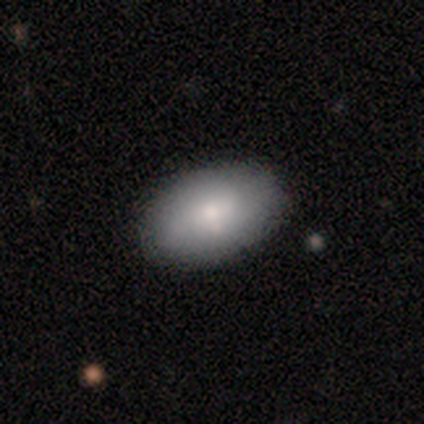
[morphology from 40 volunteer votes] Smooth or featured?
  - smooth: 72% *
  - featured or disk: 15%
  - star or artifact: 12%
How rounded?
  - in between: 86% *
  - round: 14%
  - cigar-shaped: 0%
Merging?
  - none: 91% *
  - minor disturbance: 3%
  - major disturbance: 3%
  - merger: 3%